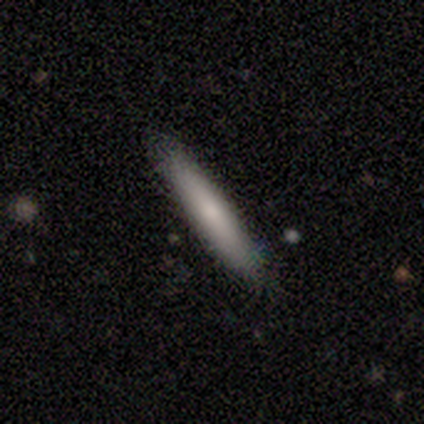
Smooth or featured: smooth — 62% (featured or disk — 38%)
How rounded: cigar-shaped — 62% (in between — 38%)
Merging: none — 100%